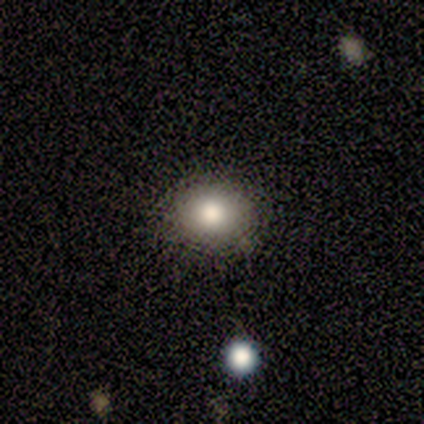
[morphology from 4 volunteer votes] Q: Smooth or featured?
A: smooth (100%)
Q: How rounded?
A: round (75%); runner-up: in between (25%)
Q: Merging?
A: none (100%)